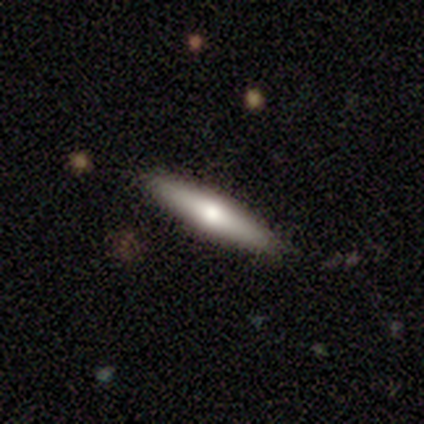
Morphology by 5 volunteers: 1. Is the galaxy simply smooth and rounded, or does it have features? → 60% featured or disk, 40% smooth, 0% star or artifact.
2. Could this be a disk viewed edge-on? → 100% yes, 0% no.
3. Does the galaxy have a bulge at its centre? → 67% rounded, 33% boxy, 0% none.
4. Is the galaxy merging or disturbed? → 80% none, 20% minor disturbance, 0% major disturbance, 0% merger.